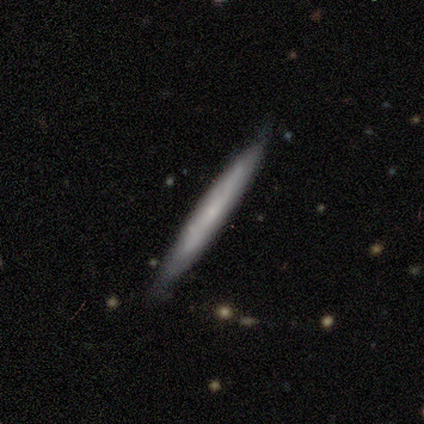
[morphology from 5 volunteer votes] This is clearly a smooth galaxy (80%). How rounded: clearly cigar-shaped (100%). Merging: clearly none (100%).